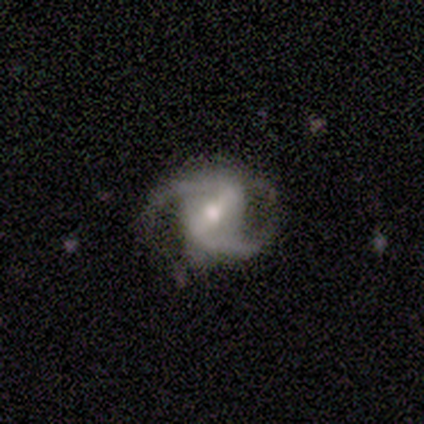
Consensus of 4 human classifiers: A featured or disk galaxy (100%) with a weak bar (67%), 2 (100%) loose (67%) spiral arms (100%) and a moderate central bulge (100%). Merging: none (50%, tied with minor disturbance).